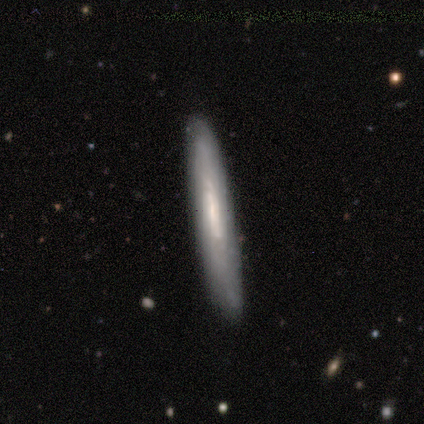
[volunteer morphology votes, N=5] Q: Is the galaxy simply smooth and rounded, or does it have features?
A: smooth — 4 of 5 (80%).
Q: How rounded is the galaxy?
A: cigar-shaped — 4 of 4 (100%).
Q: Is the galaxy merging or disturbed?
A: none — 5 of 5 (100%).